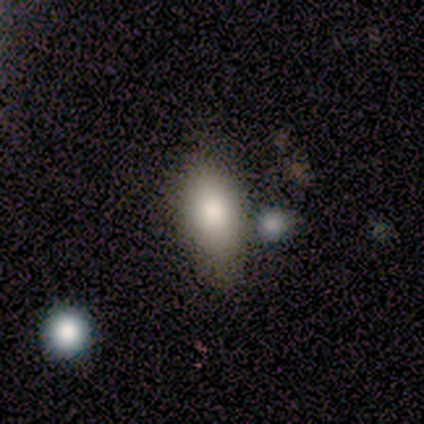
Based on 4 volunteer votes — Smooth or featured? 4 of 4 (100%) said smooth. How rounded? 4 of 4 (100%) said in between. Merging? 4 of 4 (100%) said none.